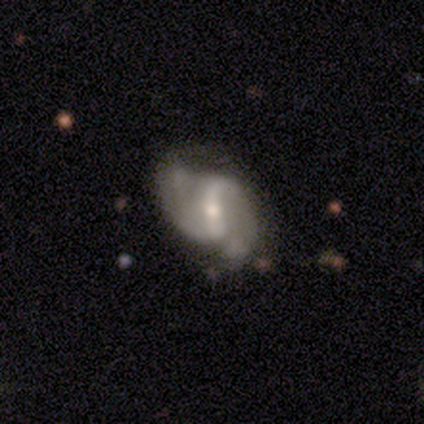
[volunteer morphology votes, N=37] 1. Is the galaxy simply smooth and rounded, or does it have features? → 81% featured or disk, 16% smooth, 3% star or artifact.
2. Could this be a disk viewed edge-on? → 100% no, 0% yes.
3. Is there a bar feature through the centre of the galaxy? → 57% strong, 33% weak, 10% no.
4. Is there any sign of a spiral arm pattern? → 93% yes, 7% no.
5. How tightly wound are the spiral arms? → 79% medium, 18% loose, 4% tight.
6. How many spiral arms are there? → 93% 2, 4% 1, 4% can't tell, 0% 3, 0% 4, 0% more than 4.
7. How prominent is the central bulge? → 53% moderate, 43% small, 3% large, 0% dominant, 0% none.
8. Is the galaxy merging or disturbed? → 42% none, 19% minor disturbance, 3% major disturbance, 0% merger.